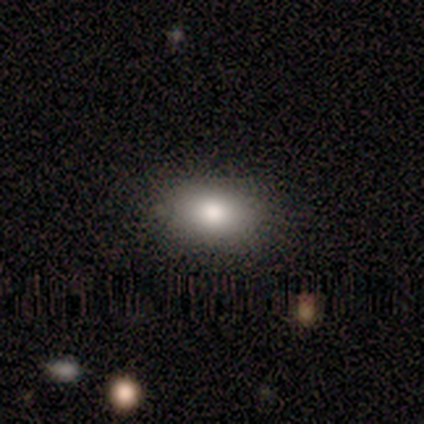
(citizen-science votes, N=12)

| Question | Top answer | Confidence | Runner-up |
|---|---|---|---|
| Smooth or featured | smooth | 75% | featured or disk (17%) |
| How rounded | in between | 78% | round (22%) |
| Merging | none | 82% | minor disturbance (18%) |